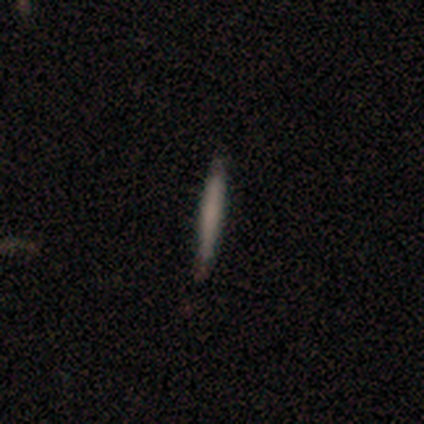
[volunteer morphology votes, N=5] A smooth galaxy with no disk features (60%) that is cigar-shaped (100%). Merging: none (75%).